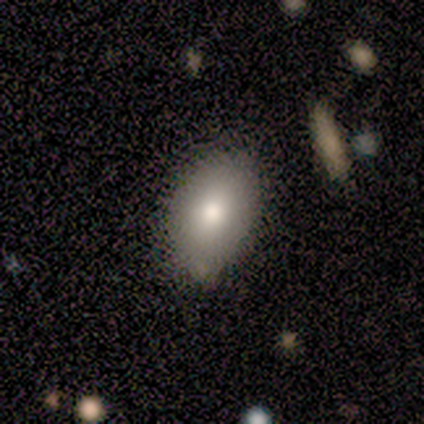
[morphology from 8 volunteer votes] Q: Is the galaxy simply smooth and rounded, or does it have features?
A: smooth — 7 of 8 (88%).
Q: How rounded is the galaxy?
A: in between — 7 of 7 (100%).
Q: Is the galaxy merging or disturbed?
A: none — 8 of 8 (100%).